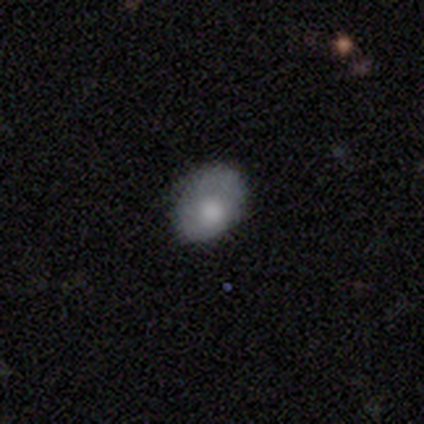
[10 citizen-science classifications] Q: Smooth or featured?
A: smooth (50%); tied with: featured or disk (50%)
Q: How rounded?
A: in between (100%)
Q: Merging?
A: none (60%); runner-up: minor disturbance (20%)